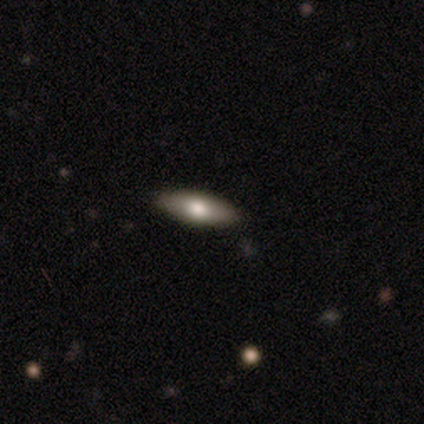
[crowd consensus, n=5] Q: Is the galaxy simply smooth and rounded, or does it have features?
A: smooth — 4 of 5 (80%).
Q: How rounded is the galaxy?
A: in between — 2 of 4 (50%, tied with cigar-shaped).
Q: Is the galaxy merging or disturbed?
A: none — 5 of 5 (100%).